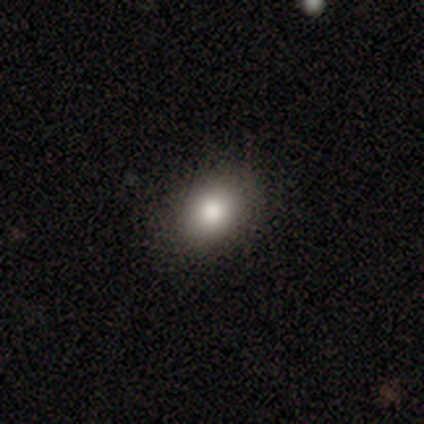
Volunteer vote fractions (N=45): This appears to be a smooth galaxy with no disk features (80%) that is in between round and cigar-shaped (67%). Merging: none (81%).